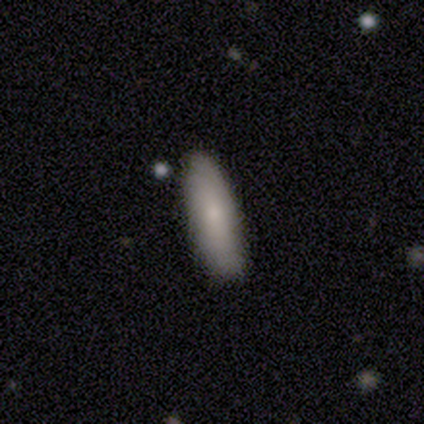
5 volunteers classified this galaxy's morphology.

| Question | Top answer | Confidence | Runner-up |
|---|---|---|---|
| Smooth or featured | smooth | 100% | — |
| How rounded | cigar-shaped | 60% | in between (40%) |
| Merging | none | 100% | — |